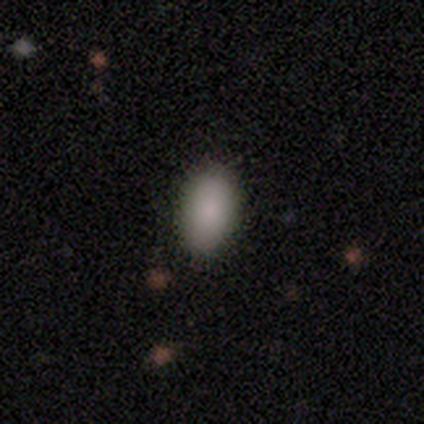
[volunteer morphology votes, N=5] Smooth or featured? 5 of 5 (100%) said smooth. How rounded? 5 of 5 (100%) said in between. Merging? 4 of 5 (80%) said none.